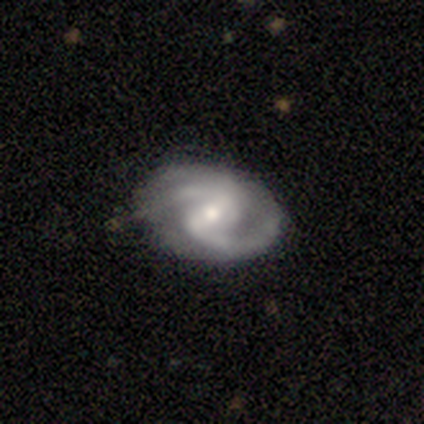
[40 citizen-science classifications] Smooth or featured? 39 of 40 (98%) said featured or disk. Edge-on disk? 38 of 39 (97%) said no. Bar? 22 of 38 (58%) said weak. Spiral arms? 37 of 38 (97%) said yes. Spiral winding? 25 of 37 (68%) said medium. Spiral arm count? 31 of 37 (84%) said 2. Bulge size? 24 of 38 (63%) said moderate. Merging? 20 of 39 (51%) said none.